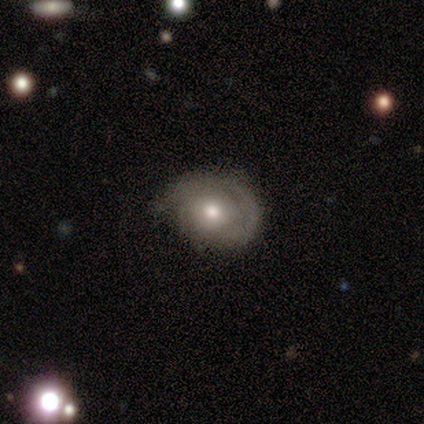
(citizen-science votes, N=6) Overall: smooth (50%, tied with featured or disk). How rounded: round (67%; in between 33%). Merging: none (67%).